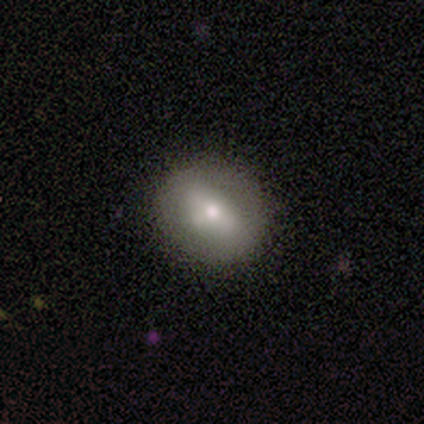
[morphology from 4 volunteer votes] This appears to be a smooth galaxy with no disk features (75%) that is in between round and cigar-shaped (100%). Merging: none (100%).